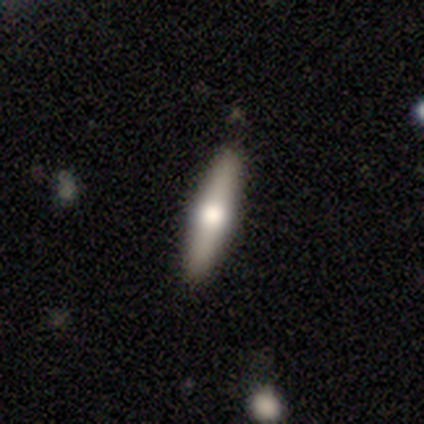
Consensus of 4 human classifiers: Morphology: type=featured or disk (100%); edge-on=yes (100%); edge-on bulge=rounded (100%); merging=none (75%).